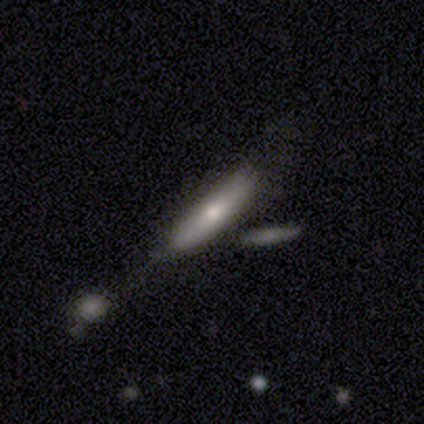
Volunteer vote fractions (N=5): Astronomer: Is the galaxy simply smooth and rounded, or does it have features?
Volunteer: smooth — 80%.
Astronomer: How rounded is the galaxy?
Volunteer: cigar-shaped — 100%.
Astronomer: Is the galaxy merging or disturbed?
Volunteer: none — 80%.